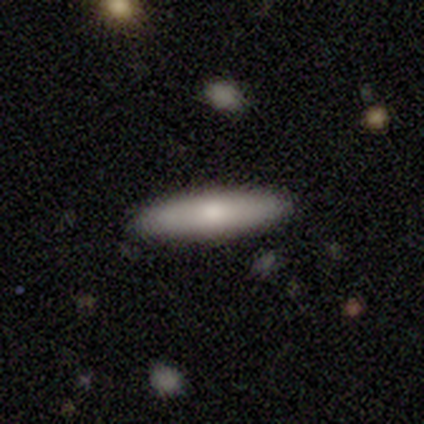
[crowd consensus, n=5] Smooth or featured? 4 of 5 (80%) said smooth. How rounded? 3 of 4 (75%) said cigar-shaped. Merging? 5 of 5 (100%) said none.